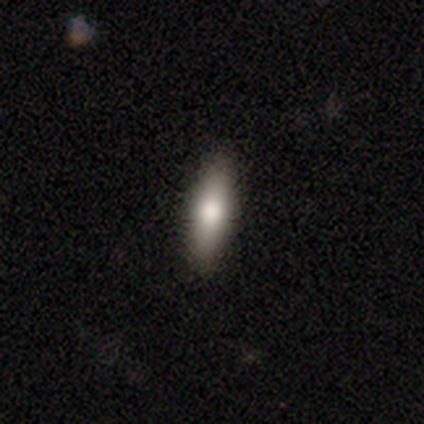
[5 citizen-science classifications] Smooth or featured: smooth — 60% (featured or disk — 20%)
How rounded: cigar-shaped — 67% (in between — 33%)
Merging: none — 100%